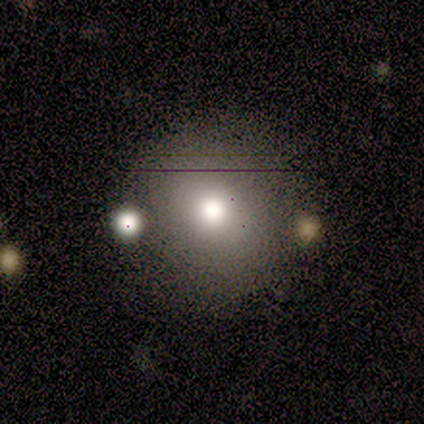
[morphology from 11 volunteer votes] type=smooth (73%); roundness=round (88%); merging=none (64%).